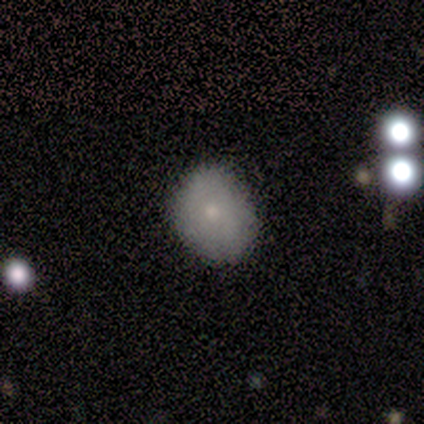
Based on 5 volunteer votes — A smooth galaxy with no disk features (100%) that is in between round and cigar-shaped (60%).

Vote fractions:
- Smooth or featured? smooth: 100% / featured or disk: 0% / star or artifact: 0%
- How rounded? in between: 60% / round: 40% / cigar-shaped: 0%
- Merging? none: 80% / minor disturbance: 20% / major disturbance: 0% / merger: 0%